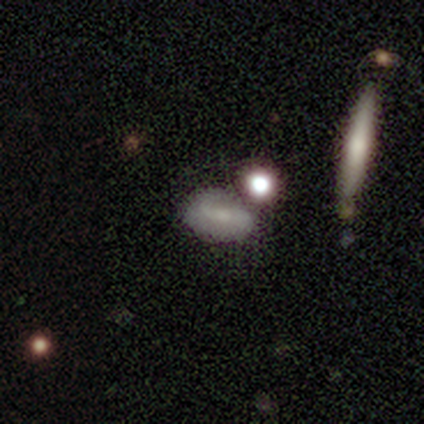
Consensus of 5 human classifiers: smooth_or_featured: smooth (p=0.60) [alt: featured or disk p=0.20]
how_rounded: in between (p=1.00)
merging: minor disturbance (p=0.50) [tied with: merger p=0.50]